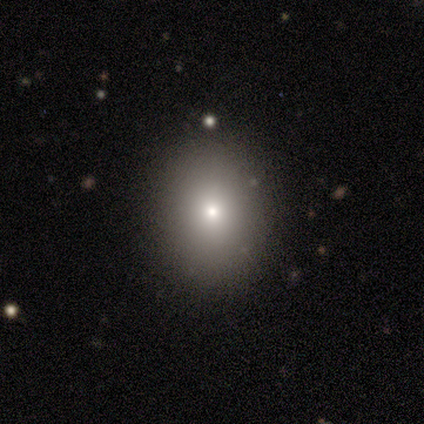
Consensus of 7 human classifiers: Smooth or featured? 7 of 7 (100%) said smooth. How rounded? 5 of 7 (71%) said in between. Merging? 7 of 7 (100%) said none.